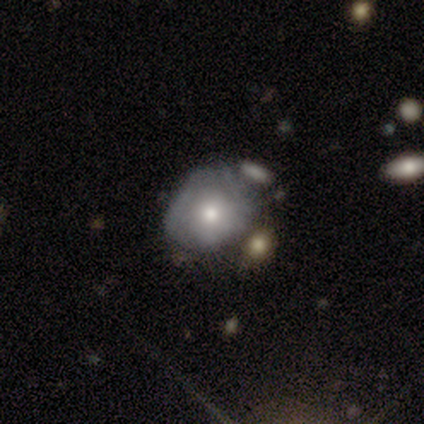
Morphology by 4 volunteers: Smooth or featured? smooth (50%, tied with featured or disk)
How rounded? round (100%)
Merging? none (75%)